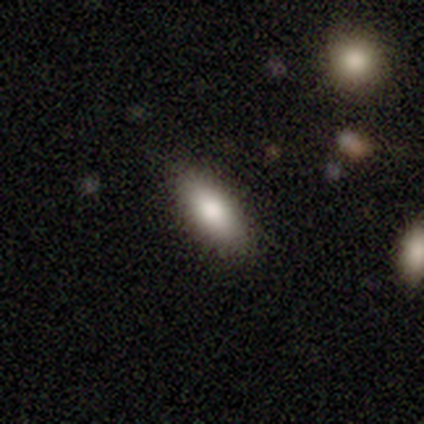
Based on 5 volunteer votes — Q: Smooth or featured?
A: smooth (100%)
Q: How rounded?
A: in between (100%)
Q: Merging?
A: none (100%)